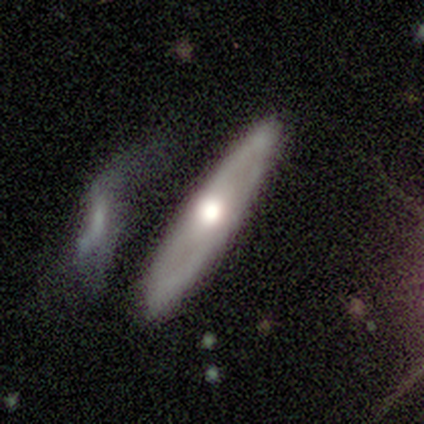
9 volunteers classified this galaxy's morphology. Smooth or featured? 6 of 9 (67%) said smooth. How rounded? 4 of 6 (67%) said cigar-shaped. Merging? 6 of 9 (67%) said none.